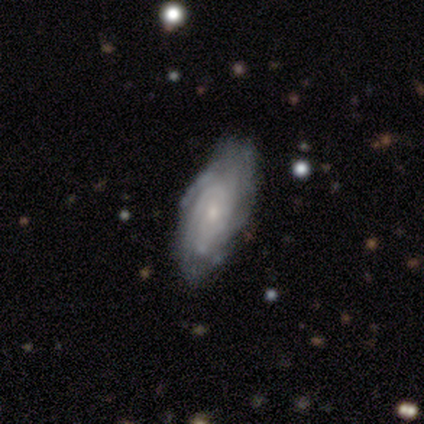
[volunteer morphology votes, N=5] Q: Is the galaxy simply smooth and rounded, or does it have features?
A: featured or disk — 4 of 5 (80%).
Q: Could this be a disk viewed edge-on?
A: no — 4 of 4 (100%).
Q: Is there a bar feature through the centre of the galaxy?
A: no — 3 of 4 (75%).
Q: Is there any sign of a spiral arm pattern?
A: yes — 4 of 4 (100%).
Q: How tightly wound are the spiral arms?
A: tight — 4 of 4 (100%).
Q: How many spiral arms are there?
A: can't tell — 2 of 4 (50%).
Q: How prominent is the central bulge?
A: small — 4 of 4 (100%).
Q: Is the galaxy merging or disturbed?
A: none — 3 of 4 (75%).